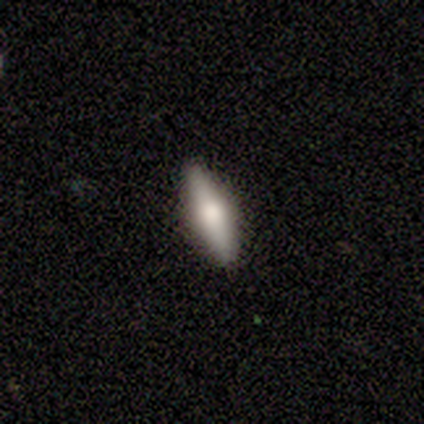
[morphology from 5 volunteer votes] Volunteers were most divided on "smooth or featured": smooth: 60%, featured or disk: 40%, star or artifact: 0%. More confident: merging — none (80%); how rounded — in between (67%).